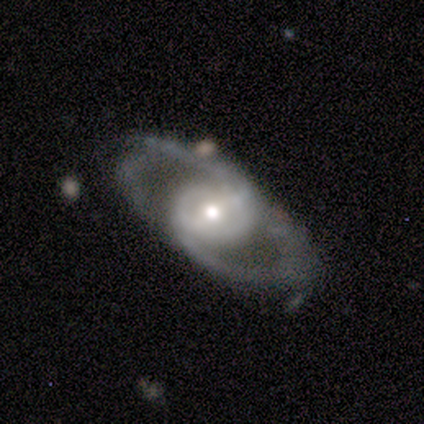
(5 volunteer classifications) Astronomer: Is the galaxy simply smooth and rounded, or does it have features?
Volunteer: featured or disk — 100%.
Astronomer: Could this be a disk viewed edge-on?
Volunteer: no — 100%.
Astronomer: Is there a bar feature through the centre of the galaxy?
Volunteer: weak — 40%, tied with no at 40%.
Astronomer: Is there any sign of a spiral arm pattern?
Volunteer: yes — 100%.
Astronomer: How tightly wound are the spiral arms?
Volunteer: medium — 40%, tied with loose at 40%.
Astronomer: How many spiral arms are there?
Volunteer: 2 — 80%.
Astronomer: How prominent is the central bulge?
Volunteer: moderate — 40%, tied with small at 40%.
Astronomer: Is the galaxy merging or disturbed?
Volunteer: none — 40%, tied with minor disturbance at 40%.